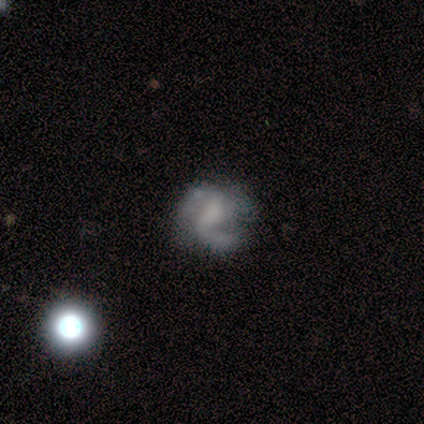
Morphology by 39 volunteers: Volunteers were most divided on "bulge size": none: 42%, small: 39%, large: 10%, moderate: 6%, dominant: 3%. Remaining: edge-on disk — no (100%); spiral arms — yes (90%); smooth or featured — featured or disk (79%); spiral arm count — 2 (64%); spiral winding — medium (54%); bar — weak (42%); merging — none (41%).